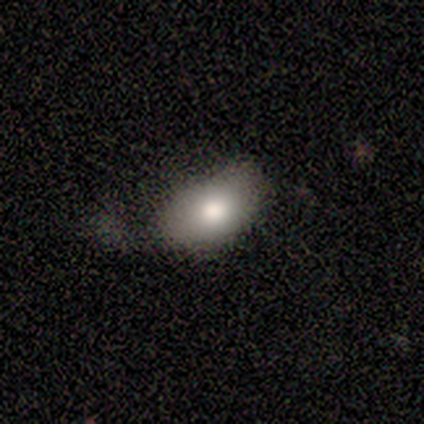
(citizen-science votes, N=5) Overall: smooth (80%). How rounded: in between (100%). Merging: none (40%, tied with minor disturbance).